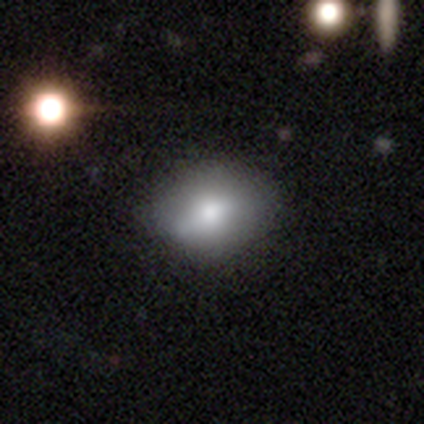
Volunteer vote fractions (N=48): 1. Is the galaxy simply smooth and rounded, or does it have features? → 75% smooth, 19% featured or disk, 6% star or artifact.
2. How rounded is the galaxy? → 75% in between, 25% round, 0% cigar-shaped.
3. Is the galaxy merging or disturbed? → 60% none, 33% minor disturbance, 7% major disturbance, 0% merger.